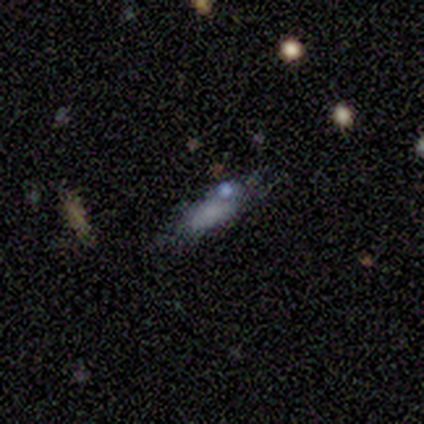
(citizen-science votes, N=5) smooth 80%, featured or disk 20%, star or artifact 0%. Down the decision tree: how rounded — in between (75%); merging — none (60%).